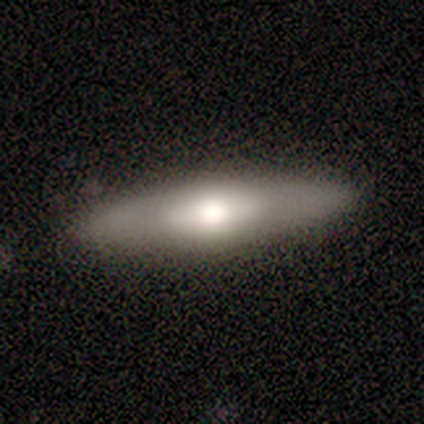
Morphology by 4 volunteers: Smooth or featured? 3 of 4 (75%) said featured or disk. Edge-on disk? 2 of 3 (67%) said yes. Edge-on bulge? 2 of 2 (100%) said rounded. Merging? 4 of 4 (100%) said none.